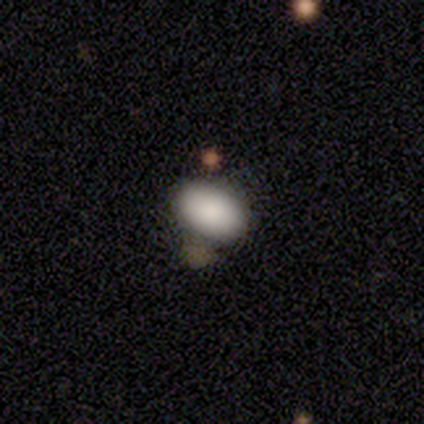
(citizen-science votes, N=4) This is clearly a smooth galaxy (100%). How rounded: clearly in between (100%). Merging: likely none (75%).